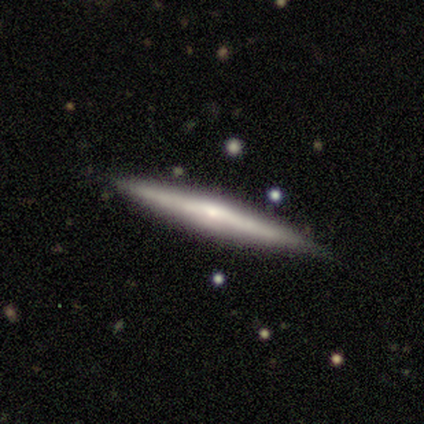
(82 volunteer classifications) smooth_or_featured: featured or disk (p=0.71) [alt: smooth p=0.26]
disk_edge_on: yes (p=0.98) [alt: no p=0.02]
edge_on_bulge: rounded (p=0.72) [alt: none p=0.23]
merging: none (p=0.86) [alt: minor disturbance p=0.14]